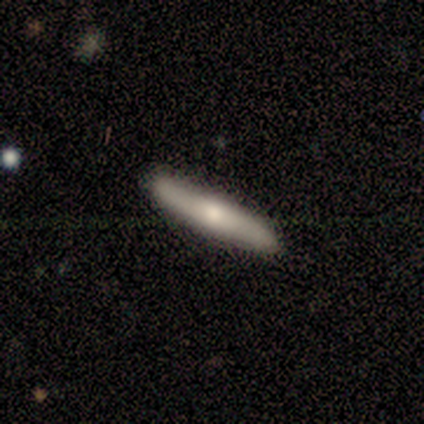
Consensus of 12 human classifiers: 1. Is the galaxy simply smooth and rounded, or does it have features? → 50% smooth (tied), 50% featured or disk (tied), 0% star or artifact.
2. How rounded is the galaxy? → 100% cigar-shaped, 0% round, 0% in between.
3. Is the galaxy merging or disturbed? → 83% none, 17% minor disturbance, 0% major disturbance, 0% merger.